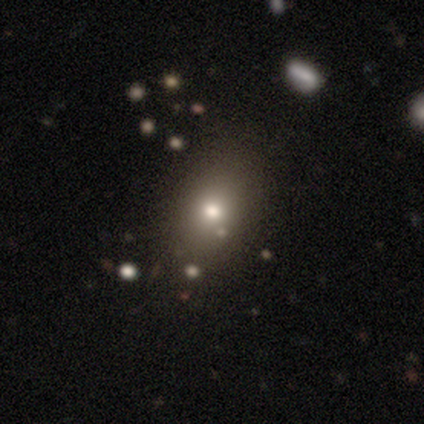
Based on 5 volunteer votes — A smooth galaxy with no disk features (80%) that is in between round and cigar-shaped (50%).

Vote fractions:
- Smooth or featured? smooth: 80% / star or artifact: 20% / featured or disk: 0%
- How rounded? in between: 50% / round: 25% / cigar-shaped: 25%
- Merging? none: 75% / merger: 25% / minor disturbance: 0% / major disturbance: 0%